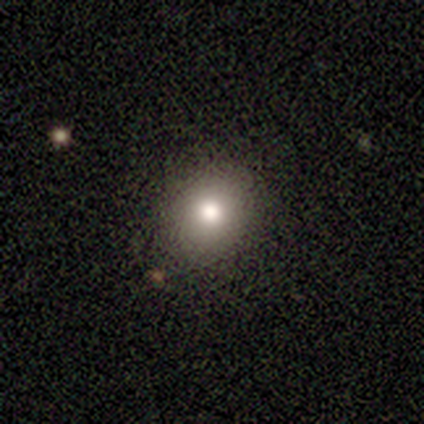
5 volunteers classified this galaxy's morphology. Smooth or featured: smooth — 100%
How rounded: round — 60% (in between — 40%)
Merging: none — 100%